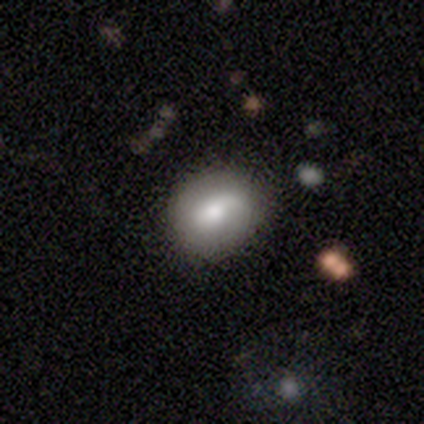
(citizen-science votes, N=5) Smooth or featured? 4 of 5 (80%) said smooth. How rounded? 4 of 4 (100%) said round. Merging? 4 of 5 (80%) said none.